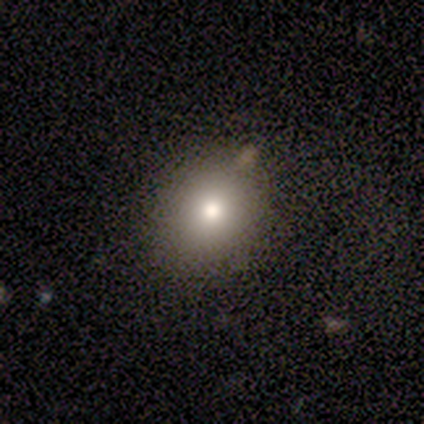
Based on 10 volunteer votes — Smooth or featured? 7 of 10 (70%) said smooth. How rounded? 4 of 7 (57%) said in between. Merging? 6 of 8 (75%) said none.